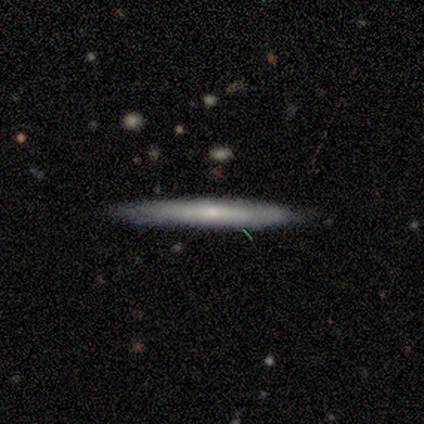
Q: Smooth or featured?
A: featured or disk (80%); runner-up: smooth (20%)
Q: Edge-on disk?
A: yes (100%)
Q: Edge-on bulge?
A: none (50%); tied with: rounded (50%)
Q: Merging?
A: none (80%); runner-up: merger (20%)